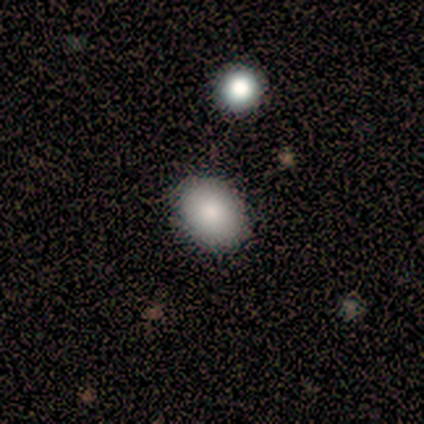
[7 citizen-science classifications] This appears to be a smooth galaxy with no disk features (71%) that is in between round and cigar-shaped (60%). Merging: none (80%).